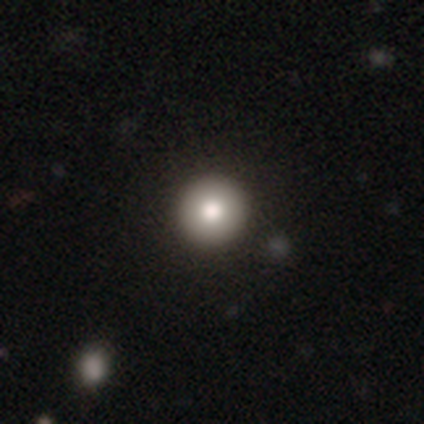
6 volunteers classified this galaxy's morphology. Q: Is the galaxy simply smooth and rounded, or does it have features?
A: smooth — 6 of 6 (100%).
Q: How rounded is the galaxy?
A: round — 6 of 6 (100%).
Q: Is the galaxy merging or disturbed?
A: none — 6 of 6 (100%).